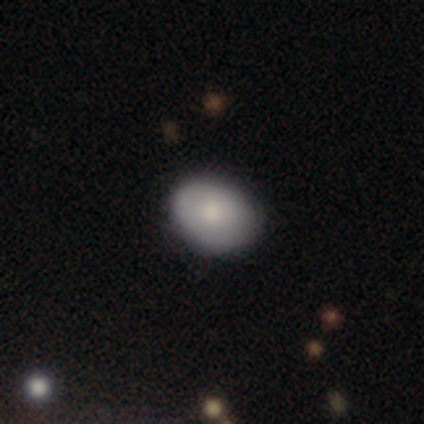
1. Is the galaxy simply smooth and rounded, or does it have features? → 74% smooth, 18% featured or disk, 8% star or artifact.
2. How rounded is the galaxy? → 75% in between, 25% round, 0% cigar-shaped.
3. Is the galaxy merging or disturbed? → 80% none, 11% minor disturbance, 9% major disturbance, 0% merger.